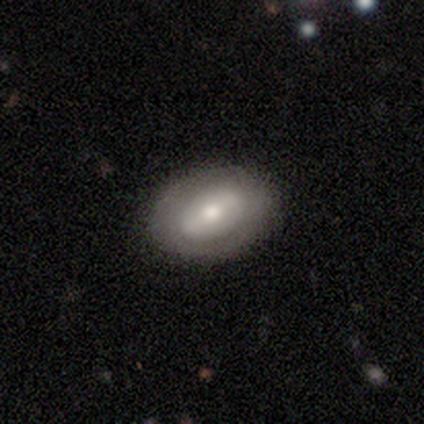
Q: Smooth or featured?
A: featured or disk (59%); runner-up: smooth (38%)
Q: Edge-on disk?
A: no (91%); runner-up: yes (9%)
Q: Bar?
A: weak (48%); runner-up: strong (33%)
Q: Spiral arms?
A: no (86%); runner-up: yes (14%)
Q: Bulge size?
A: moderate (62%); runner-up: large (19%)
Q: Merging?
A: none (76%); runner-up: minor disturbance (8%)